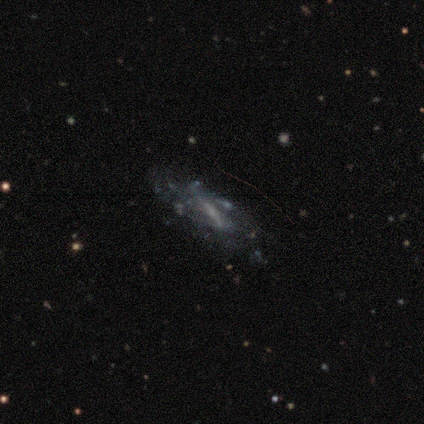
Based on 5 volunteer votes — Smooth or featured? featured or disk (80%)
Edge-on disk? no (75%)
Bar? no (67%)
Spiral arms? yes (67%)
Spiral winding? medium (50%, tied with loose)
Spiral arm count? can't tell (100%)
Bulge size? moderate (33%, tied with small and none)
Merging? none (80%)